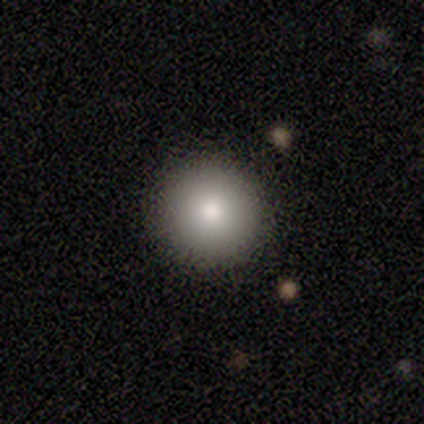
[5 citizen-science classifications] This is clearly a smooth galaxy (100%). How rounded: clearly round (100%). Merging: clearly none (80%).